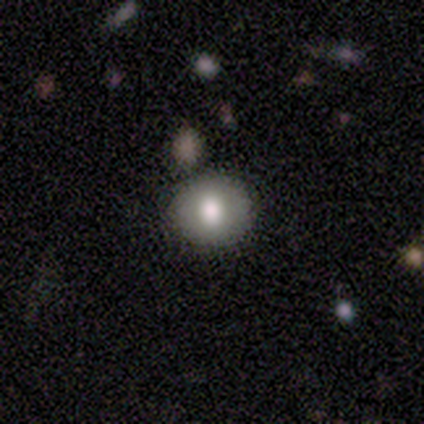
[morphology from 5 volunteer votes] This appears to be a smooth galaxy with no disk features (80%) that is round (75%). Merging: none (80%).